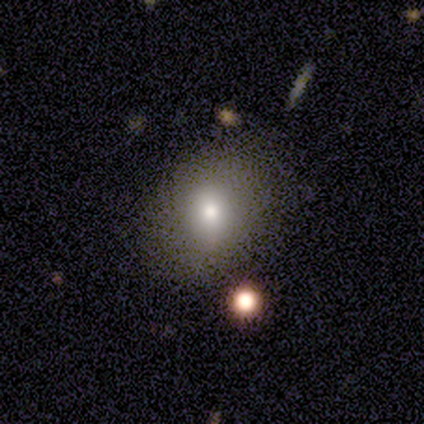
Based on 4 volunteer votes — Q: Smooth or featured?
A: smooth (100%)
Q: How rounded?
A: round (50%); tied with: in between (50%)
Q: Merging?
A: none (75%); runner-up: minor disturbance (25%)